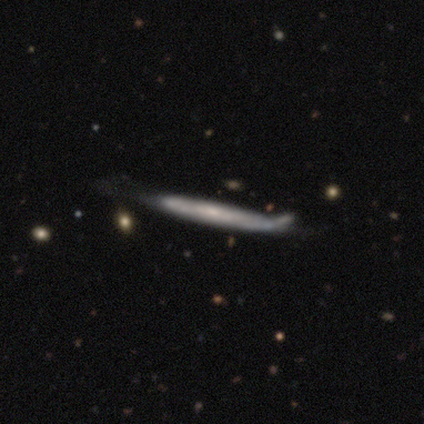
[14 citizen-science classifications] featured or disk 57%, smooth 29%, star or artifact 14%. Down the decision tree: edge-on disk — yes (75%); edge-on bulge — none (83%); merging — none (50%).